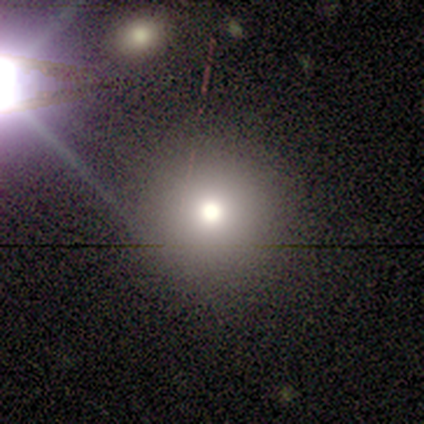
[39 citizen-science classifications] This is likely a smooth galaxy (64%). How rounded: clearly round (92%). Merging: clearly none (93%).